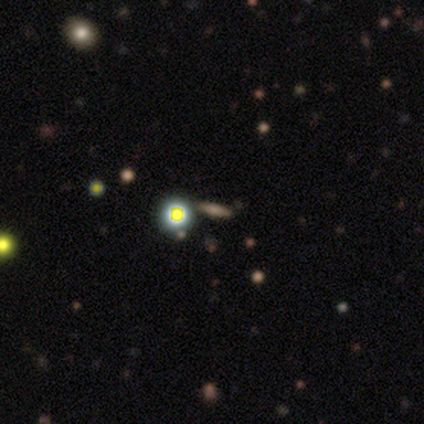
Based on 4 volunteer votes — smooth_or_featured: smooth (p=0.50) [tied with: star or artifact p=0.50]
how_rounded: in between (p=0.50) [tied with: cigar-shaped p=0.50]
merging: none (p=1.00)